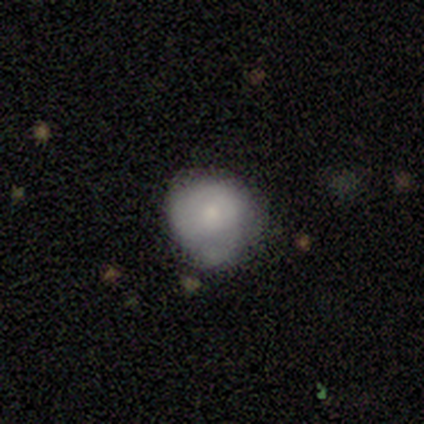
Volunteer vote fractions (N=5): Smooth or featured? smooth (60%)
How rounded? round (100%)
Merging? minor disturbance (60%)